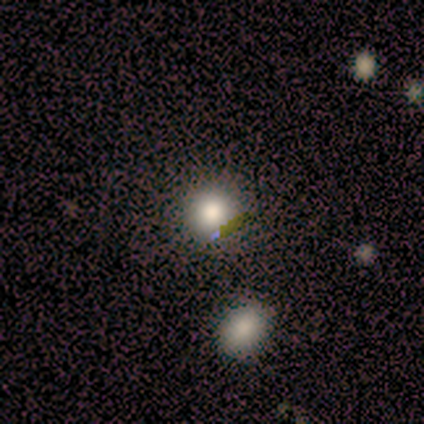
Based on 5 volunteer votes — A smooth galaxy with no disk features (60%) that is round (100%).

Vote fractions:
- Smooth or featured? smooth: 60% / star or artifact: 40% / featured or disk: 0%
- How rounded? round: 100% / in between: 0% / cigar-shaped: 0%
- Merging? none: 100% / minor disturbance: 0% / major disturbance: 0% / merger: 0%